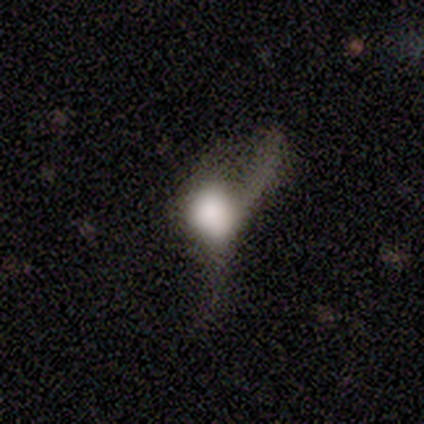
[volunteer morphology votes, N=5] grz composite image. It shows a smooth galaxy with no disk features (60%) that is round (100%). Merging: none (50%).